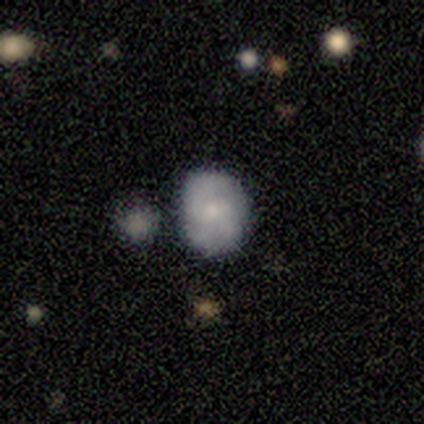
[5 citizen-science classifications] smooth-or-featured: smooth: 80% | featured or disk: 20% | star or artifact: 0%
  how-rounded: in between: 75% | round: 25% | cigar-shaped: 0%
  merging: none: 60% | minor disturbance: 40% | major disturbance: 0% | merger: 0%